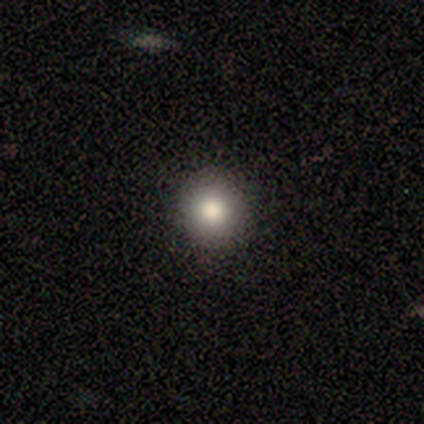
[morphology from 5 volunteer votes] smooth-or-featured: smooth: 100% | featured or disk: 0% | star or artifact: 0%
  how-rounded: round: 100% | in between: 0% | cigar-shaped: 0%
  merging: none: 80% | minor disturbance: 20% | major disturbance: 0% | merger: 0%